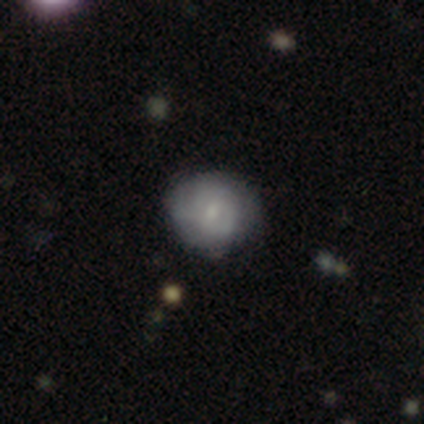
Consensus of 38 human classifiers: Overall: featured or disk (63%; smooth 26%). Edge-on disk: no (100%). Bar: no (62%; weak 38%). Spiral arms: yes (62%; no 38%). Spiral arm count: can't tell (60%; 2 20%). Spiral winding: tight (67%; medium 27%). Bulge size: small (62%; moderate 33%). Merging: none (74%).